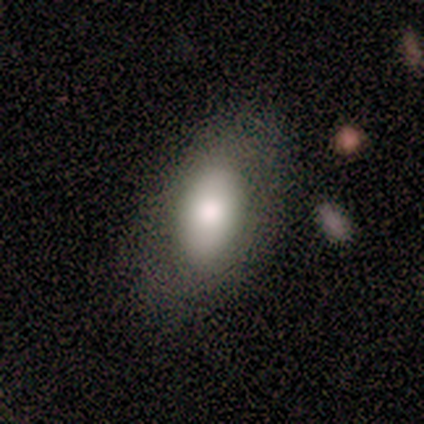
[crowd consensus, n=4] This appears to be a smooth galaxy with no disk features (100%) that is in between round and cigar-shaped (100%). Merging: none (100%).